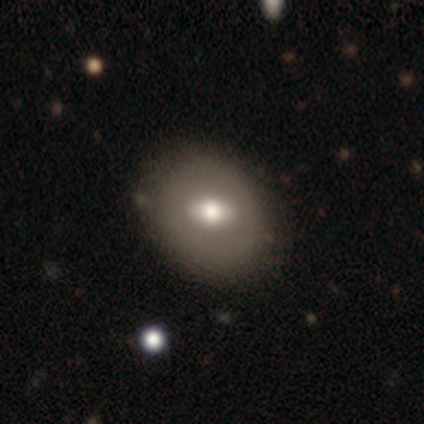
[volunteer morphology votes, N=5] Smooth or featured? featured or disk (60%)
Edge-on disk? no (100%)
Bar? no (67%)
Spiral arms? no (100%)
Bulge size? moderate (67%)
Merging? none (100%)